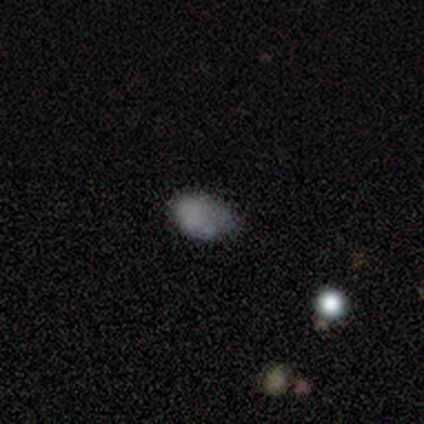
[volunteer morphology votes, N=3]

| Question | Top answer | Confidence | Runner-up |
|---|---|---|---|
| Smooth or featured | smooth | 100% | — |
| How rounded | in between | 100% | — |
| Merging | none | 67% | minor disturbance (33%) |